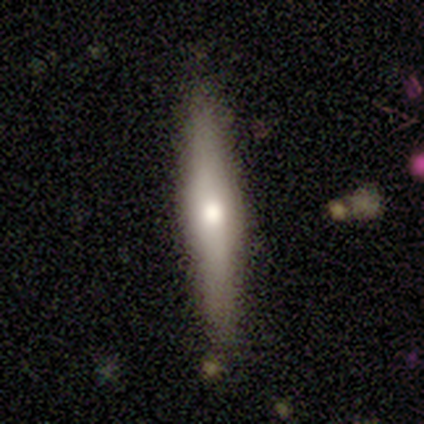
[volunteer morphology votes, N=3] A smooth galaxy with no disk features (67%) that is cigar-shaped (100%).

Vote fractions:
- Smooth or featured? smooth: 67% / star or artifact: 33% / featured or disk: 0%
- How rounded? cigar-shaped: 100% / round: 0% / in between: 0%
- Merging? none: 50% (tied) / minor disturbance: 50% (tied) / major disturbance: 0% / merger: 0%